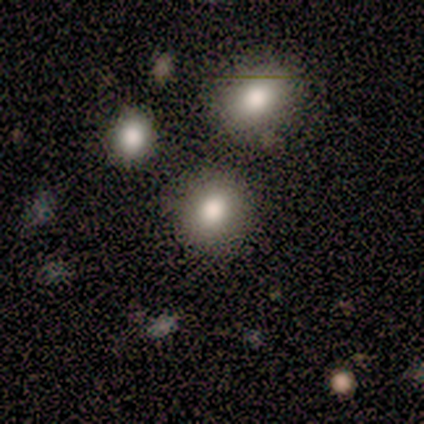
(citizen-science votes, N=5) Smooth or featured? smooth (60%)
How rounded? round (67%)
Merging? none (100%)